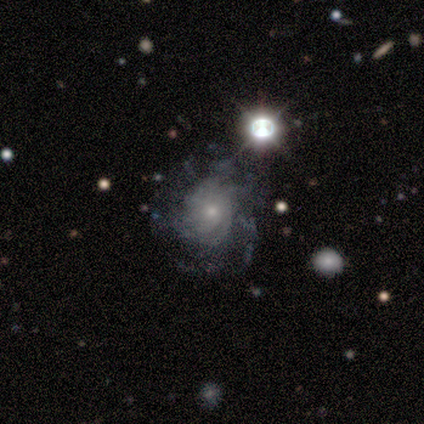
Volunteers were most divided on "bulge size": small: 60%, moderate: 40%, dominant: 0%, large: 0%, none: 0%. More confident: smooth or featured — featured or disk (100%); edge-on disk — no (100%); bar — no (80%); spiral arms — yes (80%); spiral winding — medium (75%); spiral arm count — can't tell (75%); merging — none (60%).